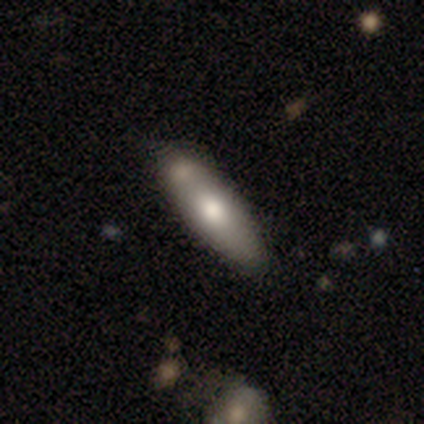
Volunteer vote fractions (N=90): Smooth or featured? 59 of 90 (66%) said smooth. How rounded? 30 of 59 (51%) said in between. Merging? 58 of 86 (67%) said none.